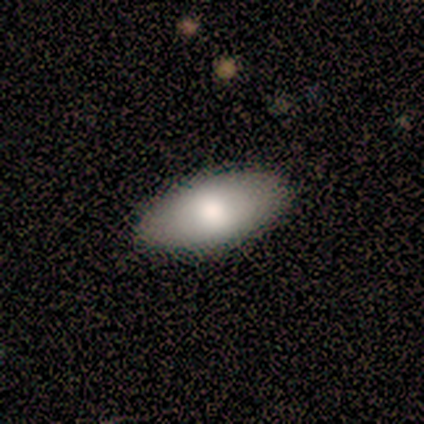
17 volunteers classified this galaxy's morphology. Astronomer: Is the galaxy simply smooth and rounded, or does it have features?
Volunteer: smooth — 76%.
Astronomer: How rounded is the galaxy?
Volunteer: in between — 92%.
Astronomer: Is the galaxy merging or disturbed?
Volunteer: none — 100%.